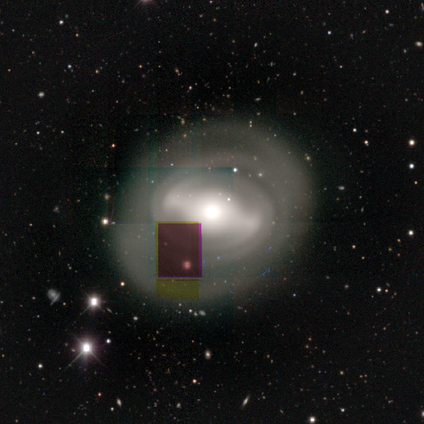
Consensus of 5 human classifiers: featured or disk 80%, smooth 20%, star or artifact 0%. Down the decision tree: edge-on disk — no (100%); bar — strong (75%); spiral arms — yes (75%); spiral arm count — 2 (100%); spiral winding — tight (67%); bulge size — moderate (75%); merging — none (100%).